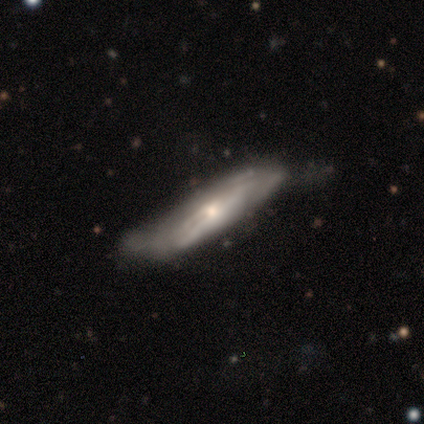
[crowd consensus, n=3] Smooth or featured: featured or disk — 67% (smooth — 33%)
Edge-on disk: yes — 100%
Edge-on bulge: rounded — 100%
Merging: minor disturbance — 67% (none — 33%)